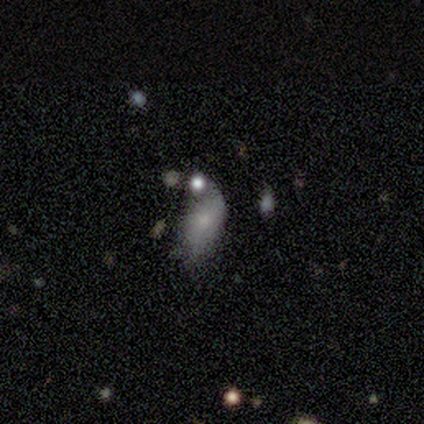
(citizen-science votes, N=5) Smooth or featured: smooth — 60% (featured or disk — 40%)
How rounded: in between — 67% (cigar-shaped — 33%)
Merging: major disturbance — 60% (none — 40%)